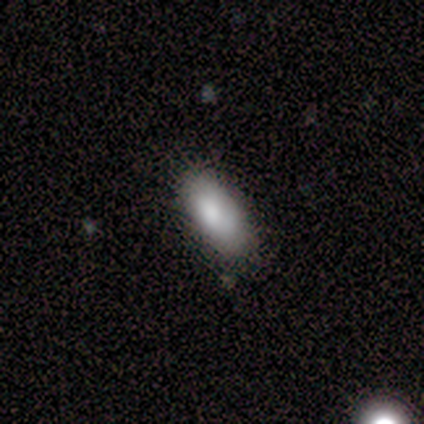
A smooth galaxy with no disk features (100%) that is in between round and cigar-shaped (75%).

Vote fractions:
- Smooth or featured? smooth: 100% / featured or disk: 0% / star or artifact: 0%
- How rounded? in between: 75% / cigar-shaped: 25% / round: 0%
- Merging? none: 100% / minor disturbance: 0% / major disturbance: 0% / merger: 0%